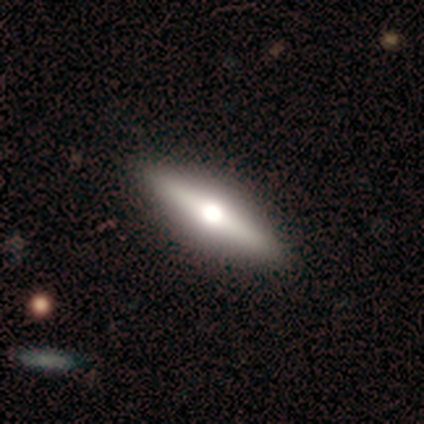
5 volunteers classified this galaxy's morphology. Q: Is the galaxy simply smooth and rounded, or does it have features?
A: featured or disk — 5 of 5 (100%).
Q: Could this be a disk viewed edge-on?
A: yes — 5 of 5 (100%).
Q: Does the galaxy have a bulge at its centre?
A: rounded — 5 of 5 (100%).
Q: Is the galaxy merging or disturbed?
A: none — 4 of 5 (80%).